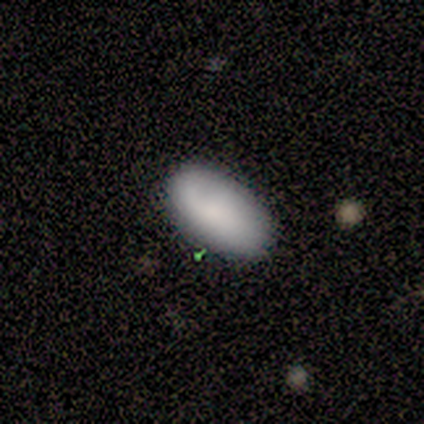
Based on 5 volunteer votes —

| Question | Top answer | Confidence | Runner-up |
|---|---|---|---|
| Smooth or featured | smooth | 100% | — |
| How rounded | in between | 80% | cigar-shaped (20%) |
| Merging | none | 80% | minor disturbance (20%) |